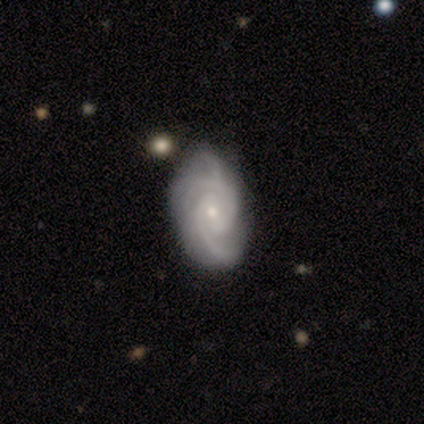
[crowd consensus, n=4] smooth-or-featured: featured or disk: 75% | smooth: 25% | star or artifact: 0%
  disk-edge-on: no: 67% | yes: 33%
    bar: weak: 50% (tied) | no: 50% (tied) | strong: 0%
    has-spiral-arms: yes: 100% | no: 0%
      spiral-winding: tight: 50% (tied) | loose: 50% (tied) | medium: 0%
      spiral-arm-count: 2: 50% (tied) | can't tell: 50% (tied) | 1: 0% | 3: 0% | 4: 0% | more than 4: 0%
    bulge-size: moderate: 100% | dominant: 0% | large: 0% | small: 0% | none: 0%
  merging: none: 75% | minor disturbance: 25% | major disturbance: 0% | merger: 0%